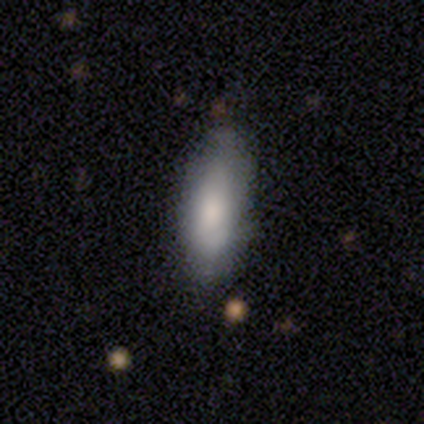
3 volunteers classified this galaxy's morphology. This appears to be a smooth galaxy with no disk features (100%) that is in between round and cigar-shaped (67%). Merging: minor disturbance (67%).